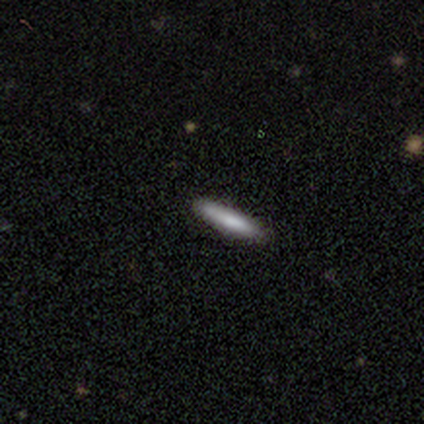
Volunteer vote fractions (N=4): A smooth galaxy with no disk features (100%) that is cigar-shaped (75%). Merging: none (100%).